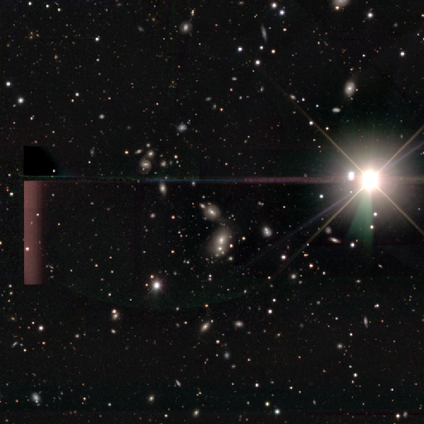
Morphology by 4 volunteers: A star or artifact, not a galaxy (75%).

Vote fractions:
- Smooth or featured? star or artifact: 75% / smooth: 25% / featured or disk: 0%